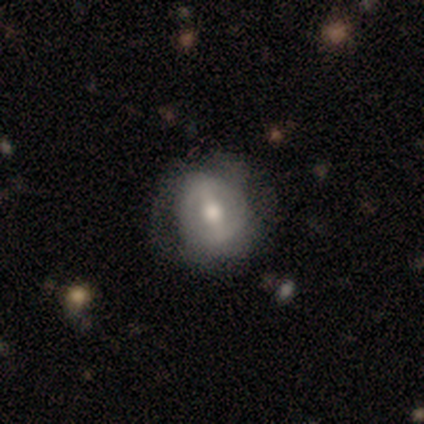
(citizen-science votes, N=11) featured or disk 91%, smooth 9%, star or artifact 0%. Down the decision tree: edge-on disk — no (100%); bar — strong (60%); spiral arms — no (70%); bulge size — moderate (40%, tied with small); merging — none (100%).